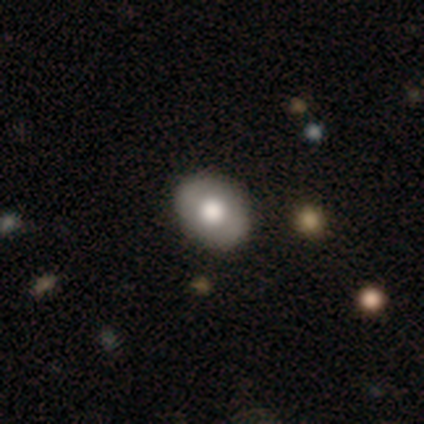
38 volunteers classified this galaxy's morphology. Smooth or featured?
  - smooth: 53% *
  - featured or disk: 42%
  - star or artifact: 5%
How rounded?
  - in between: 65% *
  - round: 35%
  - cigar-shaped: 0%
Merging?
  - none: 89% *
  - minor disturbance: 8%
  - major disturbance: 3%
  - merger: 0%